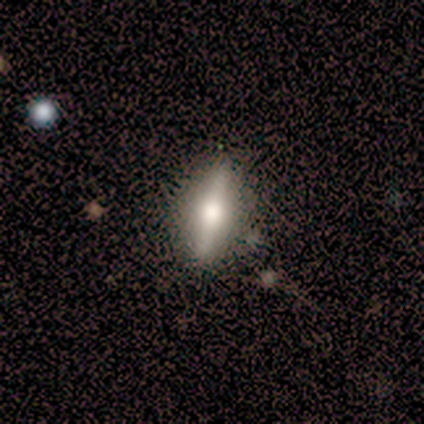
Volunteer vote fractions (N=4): Morphology: type=featured or disk (75%); edge-on=yes (100%); edge-on bulge=rounded (100%); merging=none (50%, tied with minor disturbance).